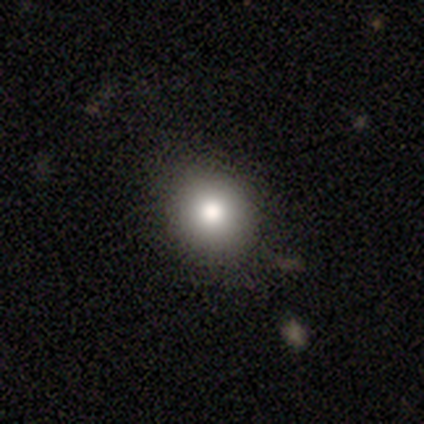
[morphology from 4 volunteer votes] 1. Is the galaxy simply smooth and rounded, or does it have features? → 75% smooth, 25% star or artifact, 0% featured or disk.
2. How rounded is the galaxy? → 100% round, 0% in between, 0% cigar-shaped.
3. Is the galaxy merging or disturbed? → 100% none, 0% minor disturbance, 0% major disturbance, 0% merger.